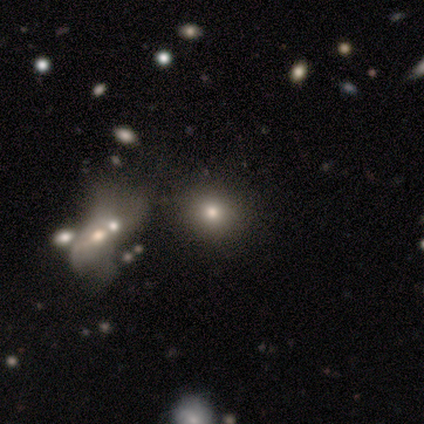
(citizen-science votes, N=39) A smooth galaxy with no disk features (82%) that is round (81%).

Vote fractions:
- Smooth or featured? smooth: 82% / star or artifact: 10% / featured or disk: 8%
- How rounded? round: 81% / in between: 19% / cigar-shaped: 0%
- Merging? none: 49% / merger: 14% / minor disturbance: 6% / major disturbance: 3%